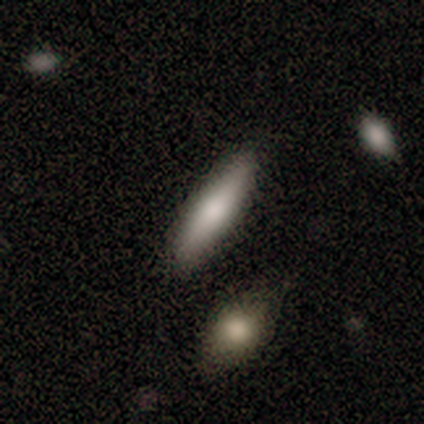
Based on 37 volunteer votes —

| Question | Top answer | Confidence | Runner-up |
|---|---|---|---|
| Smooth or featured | smooth | 76% | featured or disk (19%) |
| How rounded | cigar-shaped | 64% | in between (36%) |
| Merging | none | 83% | minor disturbance (9%) |